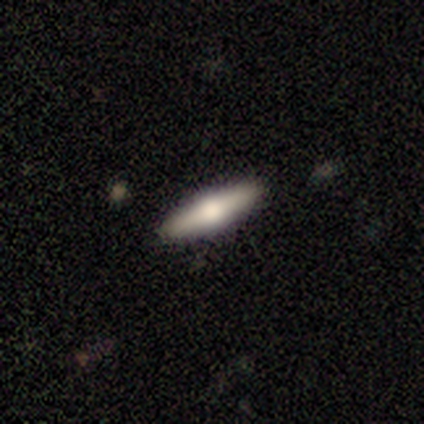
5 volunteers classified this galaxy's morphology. Smooth or featured? 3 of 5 (60%) said smooth. How rounded? 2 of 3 (67%) said cigar-shaped. Merging? 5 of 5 (100%) said none.